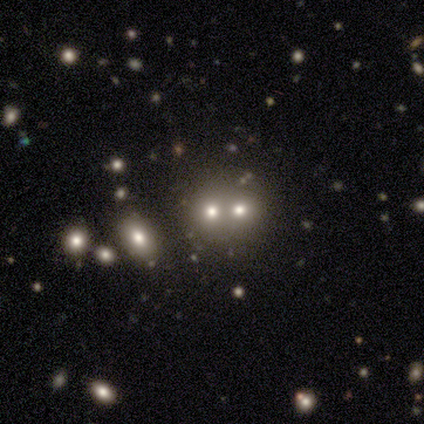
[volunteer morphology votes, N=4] This appears to be a star or artifact, not a galaxy (75%).